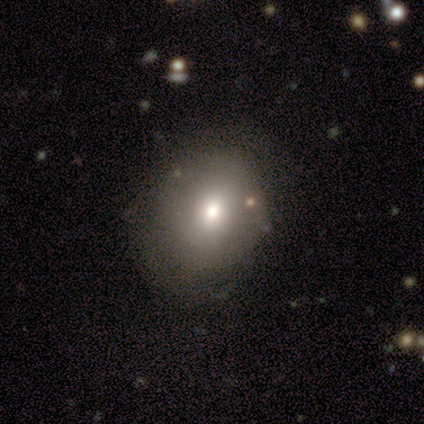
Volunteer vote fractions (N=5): smooth-or-featured: smooth: 100% | featured or disk: 0% | star or artifact: 0%
  how-rounded: round: 80% | in between: 20% | cigar-shaped: 0%
  merging: none: 100% | minor disturbance: 0% | major disturbance: 0% | merger: 0%